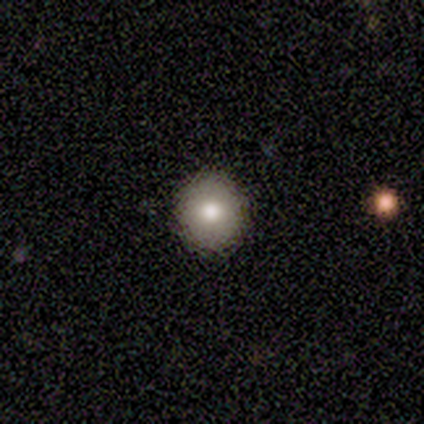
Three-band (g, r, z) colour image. It shows a featured or disk galaxy (100%) with no bar (100%), no spiral arms (100%) and a moderate central bulge (100%). Merging: none (67%).